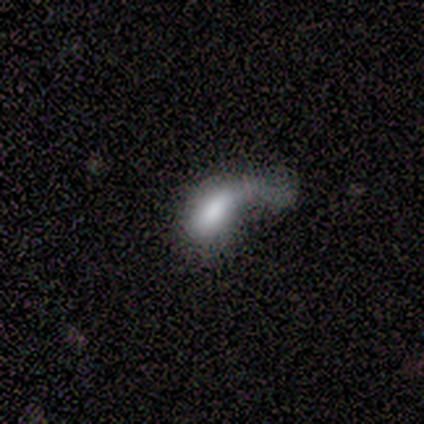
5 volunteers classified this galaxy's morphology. smooth 80%, featured or disk 20%, star or artifact 0%. Down the decision tree: how rounded — in between (100%); merging — major disturbance (80%).